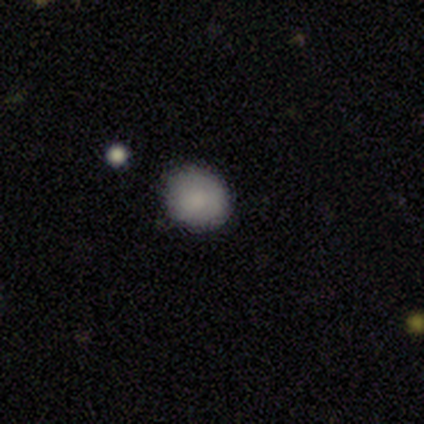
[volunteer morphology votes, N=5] smooth 60%, featured or disk 20%, star or artifact 20%. Down the decision tree: how rounded — round (100%); merging — none (75%).